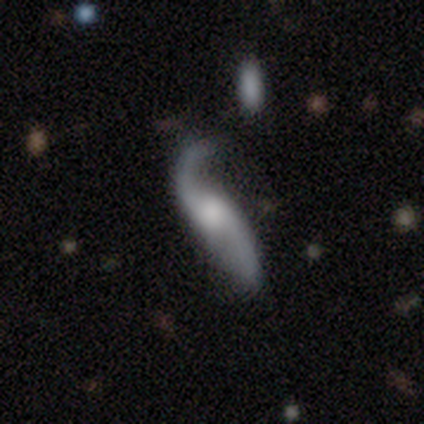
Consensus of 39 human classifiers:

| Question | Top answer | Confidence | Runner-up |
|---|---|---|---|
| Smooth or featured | featured or disk | 82% | smooth (15%) |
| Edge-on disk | no | 88% | yes (12%) |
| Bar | no | 68% | weak (29%) |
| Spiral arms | yes | 96% | no (4%) |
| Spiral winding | loose | 93% | tight (4%) |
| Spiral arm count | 2 | 89% | 1 (11%) |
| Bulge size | moderate | 36% | large (29%) |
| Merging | minor disturbance | 47% | none (26%) |